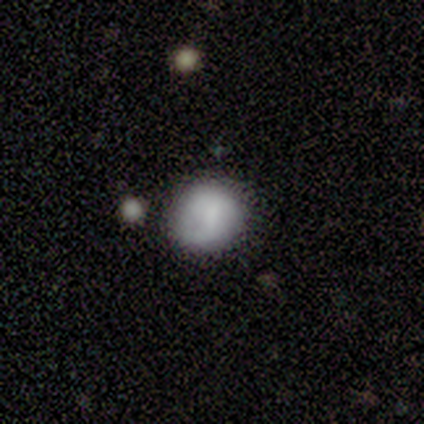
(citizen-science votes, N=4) This is possibly a star or artifact rather than a galaxy (50%).